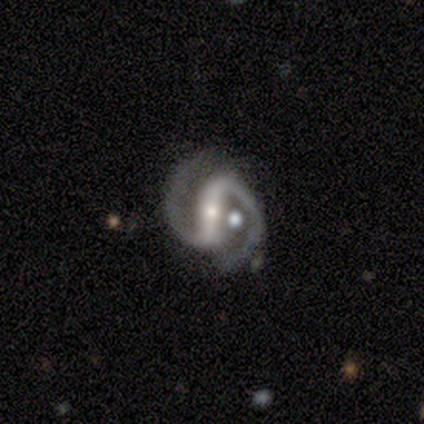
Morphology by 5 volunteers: featured or disk 100%, smooth 0%, star or artifact 0%. Down the decision tree: edge-on disk — no (100%); bar — strong (80%); spiral arms — yes (100%); spiral arm count — 2 (100%); spiral winding — medium (80%); bulge size — small (80%); merging — none (100%).